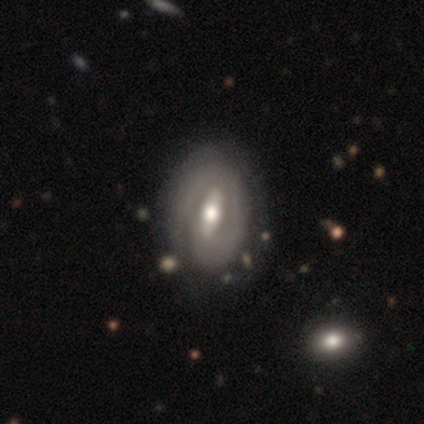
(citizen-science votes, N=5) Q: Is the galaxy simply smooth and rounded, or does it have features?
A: featured or disk — 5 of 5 (100%).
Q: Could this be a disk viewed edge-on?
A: no — 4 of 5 (80%).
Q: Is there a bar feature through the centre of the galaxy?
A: strong — 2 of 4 (50%).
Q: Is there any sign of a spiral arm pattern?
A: yes — 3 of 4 (75%).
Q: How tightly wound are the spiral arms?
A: tight — 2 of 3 (67%).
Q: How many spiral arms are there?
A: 2 — 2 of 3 (67%).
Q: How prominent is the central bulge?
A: moderate — 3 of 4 (75%).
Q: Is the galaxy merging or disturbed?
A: none — 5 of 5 (100%).